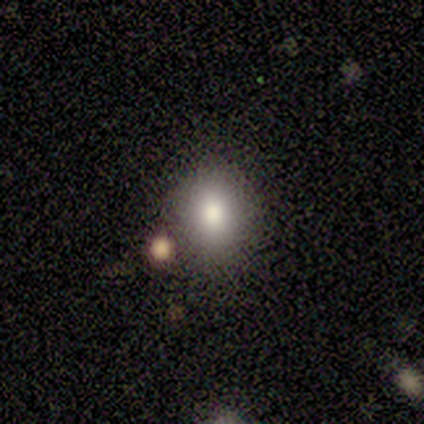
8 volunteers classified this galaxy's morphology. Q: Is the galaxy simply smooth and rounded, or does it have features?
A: smooth — 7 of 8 (88%).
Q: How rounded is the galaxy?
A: in between — 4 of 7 (57%).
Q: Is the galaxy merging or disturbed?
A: none — 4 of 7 (57%).